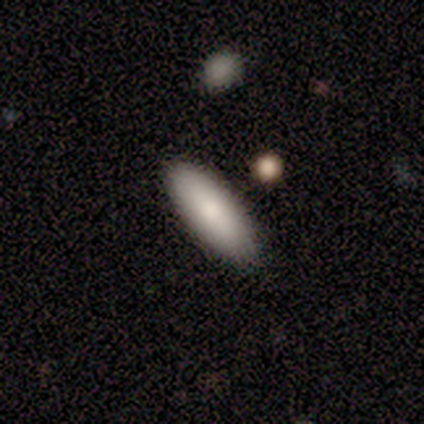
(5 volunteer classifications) Smooth or featured?
  - smooth: 80% *
  - featured or disk: 20%
  - star or artifact: 0%
How rounded?
  - in between: 50% * (tied)
  - cigar-shaped: 50% * (tied)
  - round: 0%
Merging?
  - none: 80% *
  - minor disturbance: 20%
  - major disturbance: 0%
  - merger: 0%